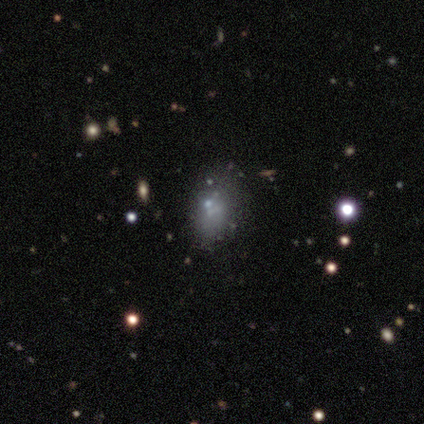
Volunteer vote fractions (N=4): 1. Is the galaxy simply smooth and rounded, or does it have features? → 75% smooth, 25% featured or disk, 0% star or artifact.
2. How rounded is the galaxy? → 100% in between, 0% round, 0% cigar-shaped.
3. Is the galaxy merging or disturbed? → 100% none, 0% minor disturbance, 0% major disturbance, 0% merger.